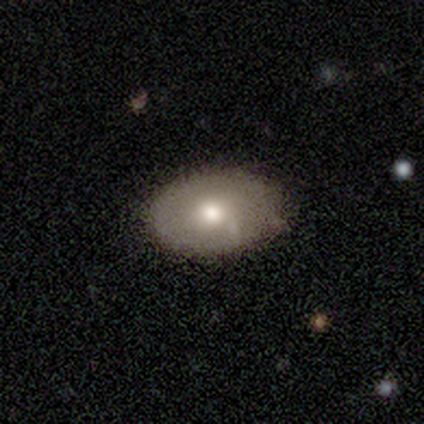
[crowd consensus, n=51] smooth_or_featured: smooth (p=0.55) [alt: featured or disk p=0.43]
how_rounded: in between (p=0.79) [alt: round p=0.21]
merging: none (p=0.80) [alt: minor disturbance p=0.18]